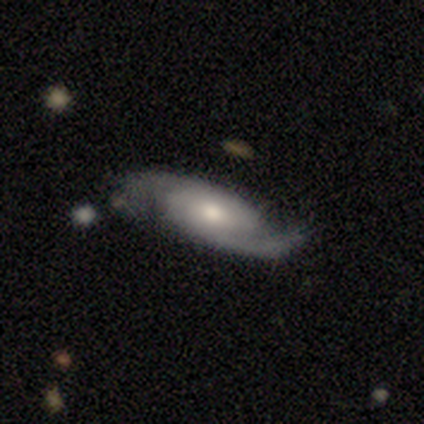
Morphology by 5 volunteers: This is clearly a featured or disk galaxy (100%). It is clearly not viewed edge-on (100%). Bar: clearly no (80%). Spiral arm pattern: clearly yes (100%). Spiral arm count: clearly 2 (80%). Spiral winding: clearly medium (80%). Central bulge: clearly moderate (100%). Merging: clearly none (100%).